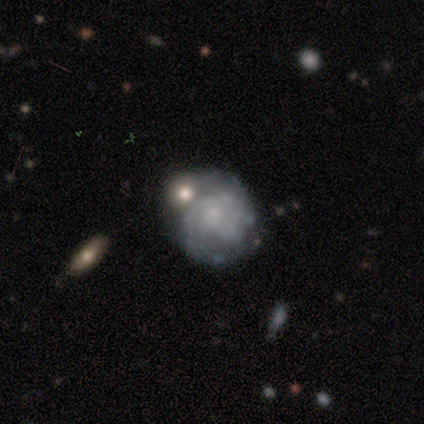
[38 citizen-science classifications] Smooth or featured: featured or disk — 82% (smooth — 16%)
Edge-on disk: no — 100%
Bar: no — 87% (weak — 13%)
Spiral arms: yes — 81% (no — 19%)
Spiral winding: tight — 60% (medium — 40%)
Spiral arm count: 2 — 52% (can't tell — 36%)
Bulge size: small — 71% (none — 29%)
Merging: none — 57% (minor disturbance — 22%)